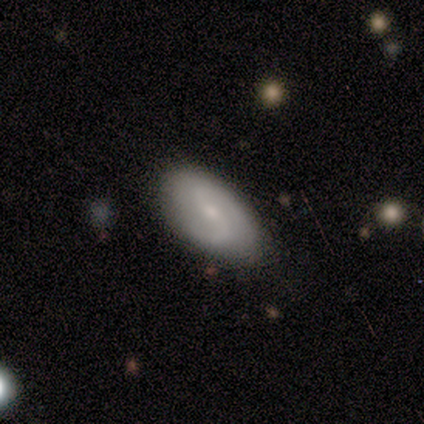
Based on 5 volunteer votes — Q: Smooth or featured?
A: featured or disk (80%); runner-up: smooth (20%)
Q: Edge-on disk?
A: no (100%)
Q: Bar?
A: weak (50%); tied with: no (50%)
Q: Spiral arms?
A: yes (100%)
Q: Spiral winding?
A: medium (50%); tied with: loose (50%)
Q: Spiral arm count?
A: 2 (75%); runner-up: can't tell (25%)
Q: Bulge size?
A: small (75%); runner-up: moderate (25%)
Q: Merging?
A: none (80%); runner-up: minor disturbance (20%)